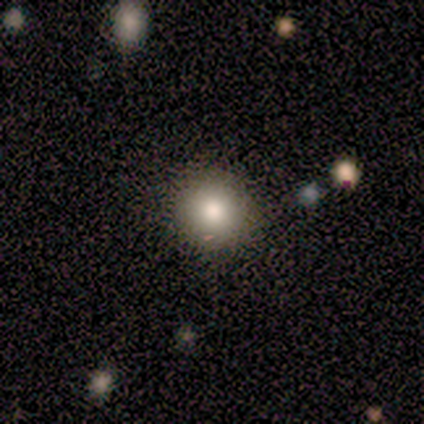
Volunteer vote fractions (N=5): Morphology: type=smooth (60%); roundness=round (100%); merging=none (100%).